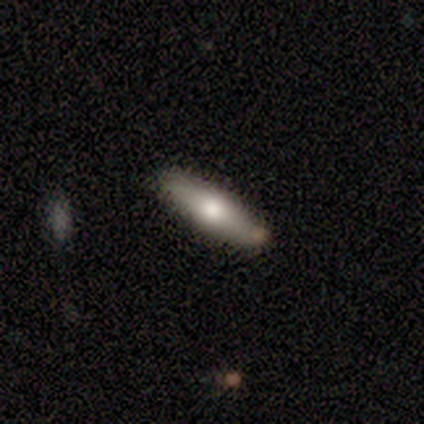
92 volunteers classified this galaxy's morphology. Volunteers were most divided on "smooth or featured": smooth: 63%, featured or disk: 35%, star or artifact: 2%. More confident: merging — none (91%); how rounded — cigar-shaped (83%).